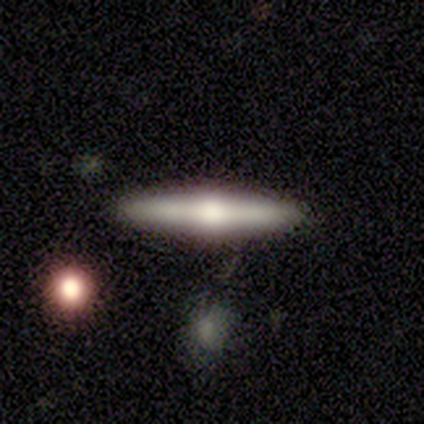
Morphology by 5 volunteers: Smooth or featured?
  - featured or disk: 80% *
  - smooth: 20%
  - star or artifact: 0%
Edge-on disk?
  - yes: 100% *
  - no: 0%
Edge-on bulge?
  - rounded: 100% *
  - boxy: 0%
  - none: 0%
Merging?
  - none: 80% *
  - major disturbance: 20%
  - minor disturbance: 0%
  - merger: 0%